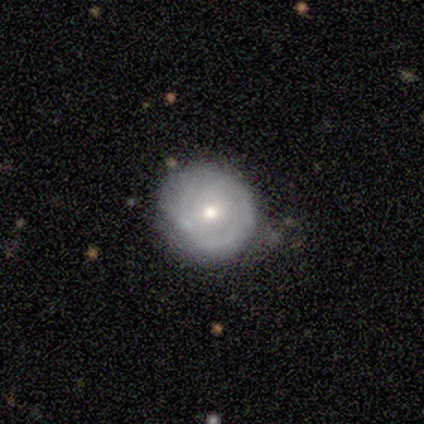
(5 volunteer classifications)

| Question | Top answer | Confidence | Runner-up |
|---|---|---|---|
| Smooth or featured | featured or disk | 80% | smooth (20%) |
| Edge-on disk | no | 100% | — |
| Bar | no | 50% | strong (25%) |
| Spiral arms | no | 75% | yes (25%) |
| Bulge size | small | 75% | moderate (25%) |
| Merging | none | 80% | minor disturbance (20%) |